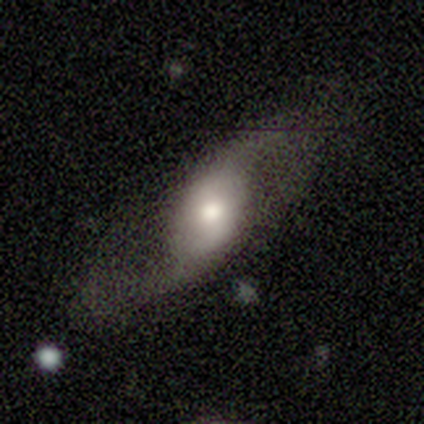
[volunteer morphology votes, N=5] A featured or disk galaxy (80%) with a strong bar (33%, tied with weak and no), 2 (100%) loose (100%) spiral arms (100%) and a large central bulge (33%, tied with moderate and none). Merging: none (60%).